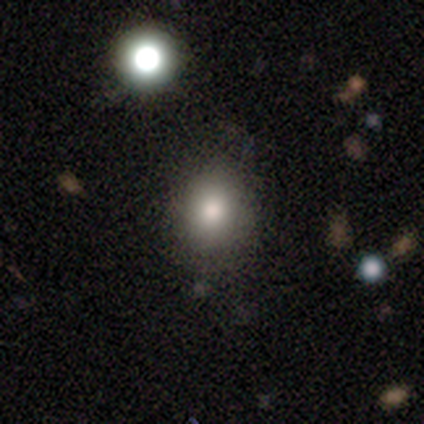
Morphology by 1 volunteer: Overall: star or artifact (100%).